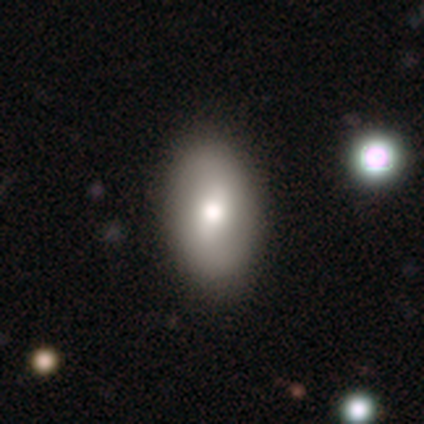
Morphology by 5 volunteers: Volunteers were most divided on "smooth or featured" (2-way tie): smooth: 40%, featured or disk: 40%, star or artifact: 20%. More confident: how rounded — in between (100%); merging — none (75%).